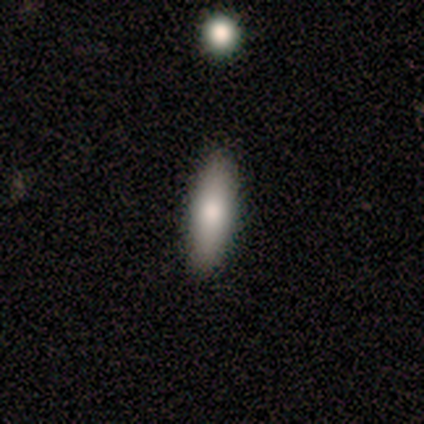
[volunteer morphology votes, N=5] Volunteers were most divided on "how rounded" (2-way tie): in between: 50%, cigar-shaped: 50%, round: 0%. More confident: smooth or featured — smooth (80%); merging — none (80%).